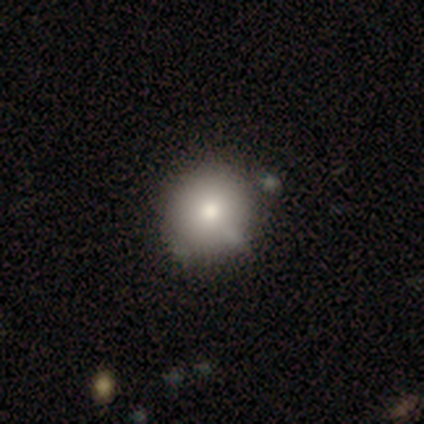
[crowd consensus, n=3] Smooth or featured?
  - smooth: 67% *
  - featured or disk: 33%
  - star or artifact: 0%
How rounded?
  - round: 50% * (tied)
  - in between: 50% * (tied)
  - cigar-shaped: 0%
Merging?
  - none: 67% *
  - major disturbance: 33%
  - minor disturbance: 0%
  - merger: 0%